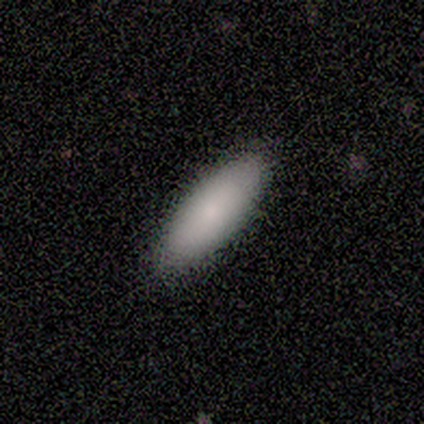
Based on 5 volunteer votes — This appears to be a smooth galaxy with no disk features (100%) that is in between round and cigar-shaped (60%). Merging: none (100%).